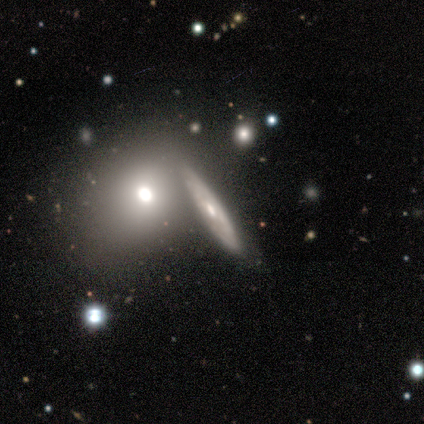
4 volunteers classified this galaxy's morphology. A smooth galaxy with no disk features (50%, tied with featured or disk) that is round (50%, tied with cigar-shaped). Merging: none (50%, tied with merger).